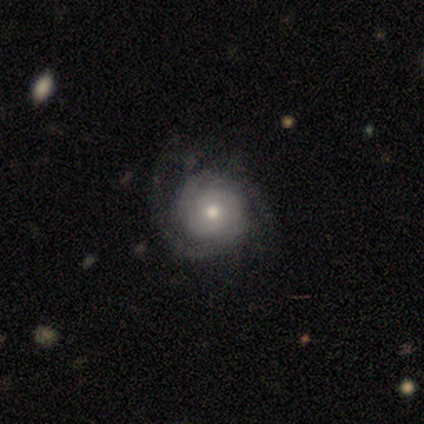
Smooth or featured? featured or disk (79%)
Edge-on disk? no (94%)
Bar? no (93%)
Spiral arms? yes (90%)
Spiral winding? tight (69%)
Spiral arm count? 2 (54%)
Bulge size? moderate (62%)
Merging? none (68%)